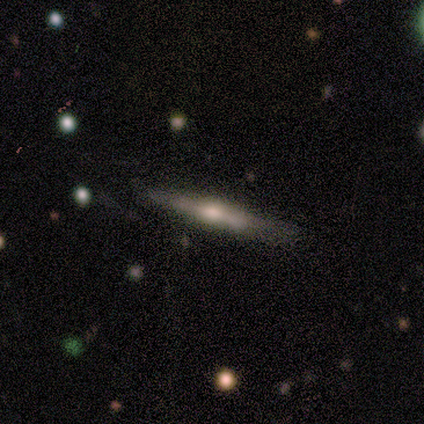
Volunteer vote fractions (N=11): A featured or disk galaxy (73%) viewed edge-on (100%) with a rounded central bulge (75%).

Vote fractions:
- Smooth or featured? featured or disk: 73% / smooth: 27% / star or artifact: 0%
- Edge-on disk? yes: 100% / no: 0%
- Edge-on bulge? rounded: 75% / boxy: 12% / none: 12%
- Merging? none: 73% / minor disturbance: 27% / major disturbance: 0% / merger: 0%